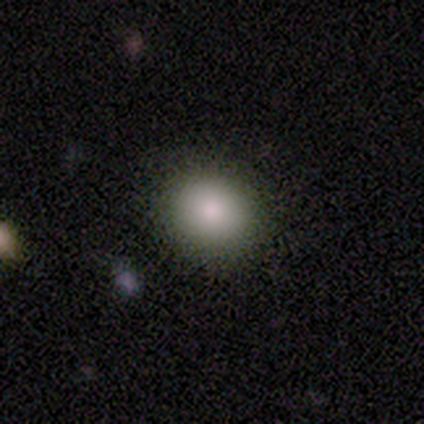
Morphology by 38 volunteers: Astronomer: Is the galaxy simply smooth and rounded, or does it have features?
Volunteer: smooth — 87%.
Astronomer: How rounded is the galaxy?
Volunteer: round — 70%.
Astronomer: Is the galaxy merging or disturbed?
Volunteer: none — 86%.